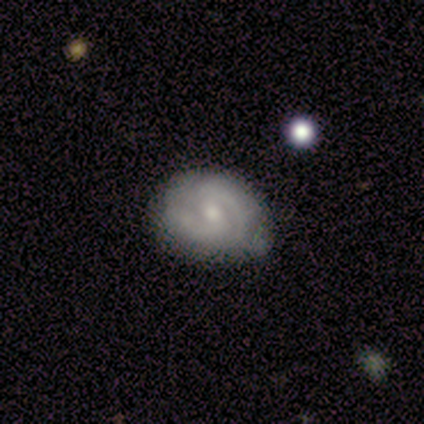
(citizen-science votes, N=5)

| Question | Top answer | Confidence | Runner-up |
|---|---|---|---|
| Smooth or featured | featured or disk | 80% | smooth (20%) |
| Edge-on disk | no | 100% | — |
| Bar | weak | 50% | strong (25%) |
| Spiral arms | yes | 100% | — |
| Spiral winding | medium | 100% | — |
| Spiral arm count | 2 | 100% | — |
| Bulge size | small | 50% | large (25%) |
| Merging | none | 40% | tied: minor disturbance (40%) |